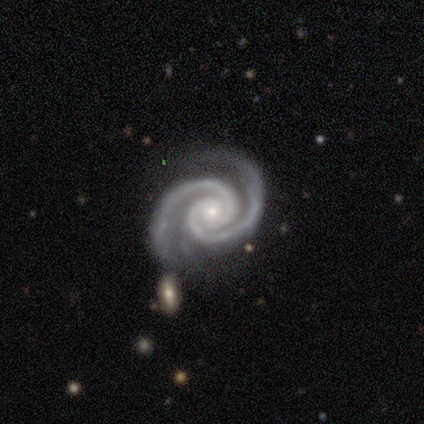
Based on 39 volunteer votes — Smooth or featured? 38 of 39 (97%) said featured or disk. Edge-on disk? 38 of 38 (100%) said no. Bar? 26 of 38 (68%) said no. Spiral arms? 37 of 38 (97%) said yes. Spiral winding? 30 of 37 (81%) said tight. Spiral arm count? 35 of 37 (95%) said 2. Bulge size? 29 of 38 (76%) said small. Merging? 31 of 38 (82%) said none.